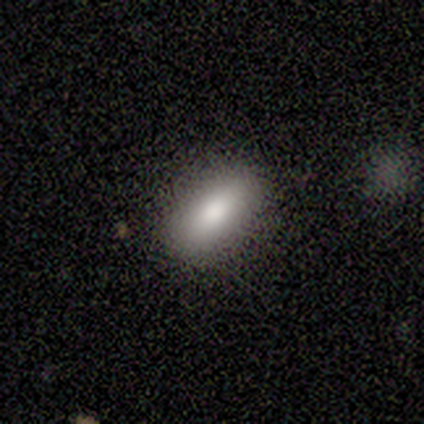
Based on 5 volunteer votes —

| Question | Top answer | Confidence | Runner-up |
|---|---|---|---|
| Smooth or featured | smooth | 60% | featured or disk (20%) |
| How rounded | in between | 100% | — |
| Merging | none | 50% | tied: minor disturbance (50%) |